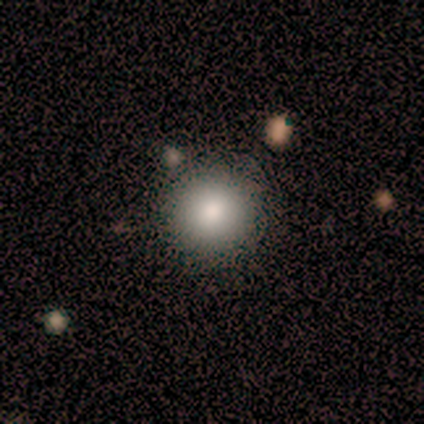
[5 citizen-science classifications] Smooth or featured? smooth (80%)
How rounded? round (100%)
Merging? none (100%)